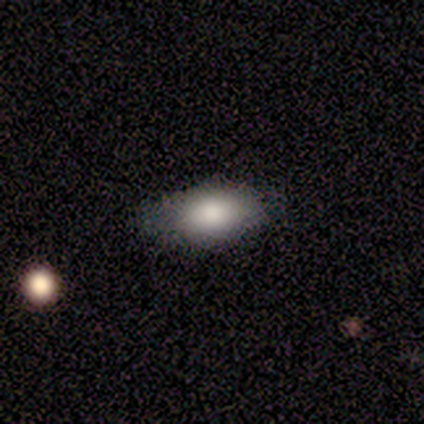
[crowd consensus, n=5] This appears to be a smooth galaxy with no disk features (80%) that is in between round and cigar-shaped (75%). Merging: none (40%, tied with minor disturbance).